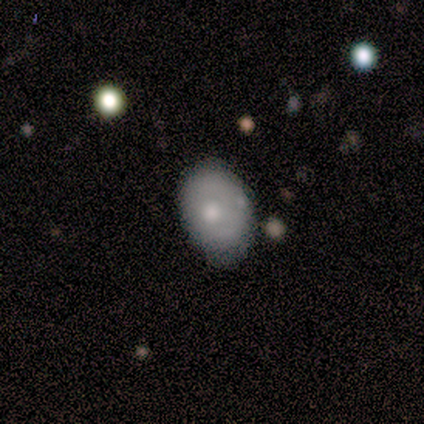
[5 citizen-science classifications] smooth_or_featured: smooth (p=0.40) [tied with: featured or disk p=0.40]
how_rounded: round (p=0.50) [tied with: in between p=0.50]
merging: none (p=0.75) [alt: major disturbance p=0.25]